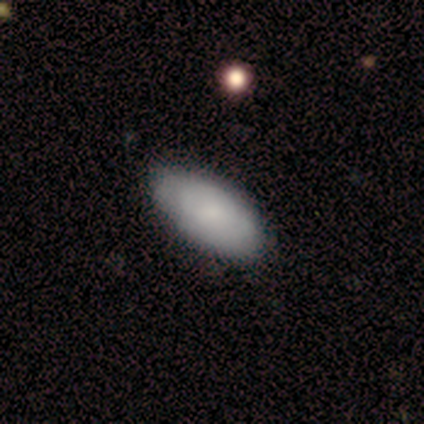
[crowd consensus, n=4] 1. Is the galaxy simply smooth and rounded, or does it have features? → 75% smooth, 25% star or artifact, 0% featured or disk.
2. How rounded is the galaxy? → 100% in between, 0% round, 0% cigar-shaped.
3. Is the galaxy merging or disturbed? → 100% none, 0% minor disturbance, 0% major disturbance, 0% merger.